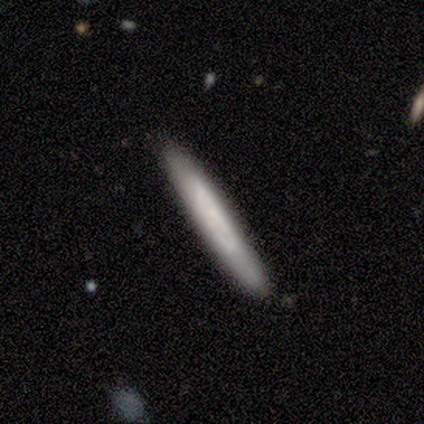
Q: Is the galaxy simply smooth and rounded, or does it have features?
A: smooth — 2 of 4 (50%, tied with featured or disk).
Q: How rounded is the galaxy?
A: cigar-shaped — 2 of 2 (100%).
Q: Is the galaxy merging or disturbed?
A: none — 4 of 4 (100%).